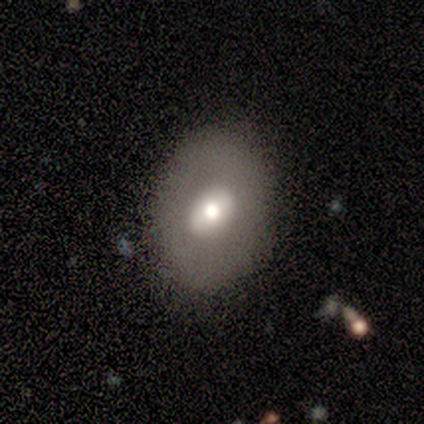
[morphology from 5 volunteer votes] Smooth or featured? 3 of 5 (60%) said smooth. How rounded? 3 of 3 (100%) said in between. Merging? 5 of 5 (100%) said none.